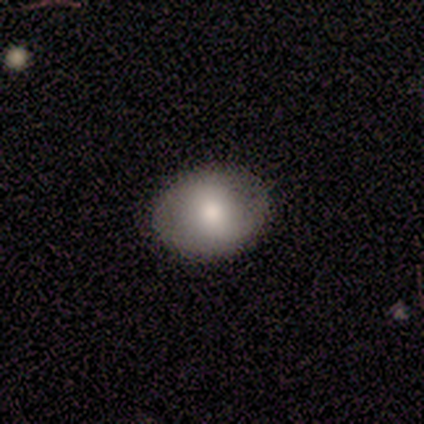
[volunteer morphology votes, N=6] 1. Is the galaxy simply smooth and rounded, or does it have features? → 100% smooth, 0% featured or disk, 0% star or artifact.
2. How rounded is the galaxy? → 67% in between, 33% round, 0% cigar-shaped.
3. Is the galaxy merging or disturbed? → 83% none, 17% major disturbance, 0% minor disturbance, 0% merger.